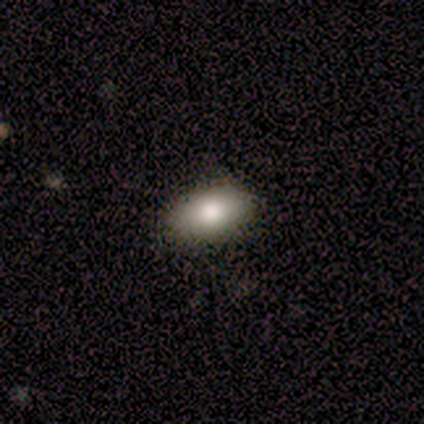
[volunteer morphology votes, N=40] smooth-or-featured: smooth: 70% | featured or disk: 20% | star or artifact: 10%
  how-rounded: in between: 93% | round: 7% | cigar-shaped: 0%
  merging: none: 97% | minor disturbance: 3% | major disturbance: 0% | merger: 0%